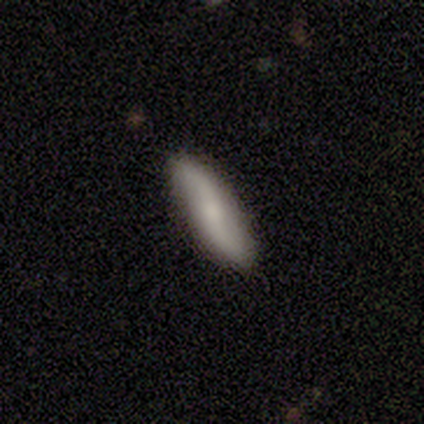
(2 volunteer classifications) A smooth galaxy with no disk features (50%, tied with featured or disk) that is cigar-shaped (100%).

Vote fractions:
- Smooth or featured? smooth: 50% (tied) / featured or disk: 50% (tied) / star or artifact: 0%
- How rounded? cigar-shaped: 100% / round: 0% / in between: 0%
- Merging? none: 100% / minor disturbance: 0% / major disturbance: 0% / merger: 0%